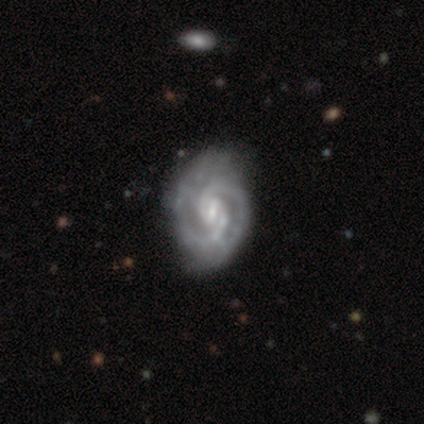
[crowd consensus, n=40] Smooth or featured? featured or disk (95%)
Edge-on disk? no (100%)
Bar? weak (63%)
Spiral arms? yes (97%)
Spiral winding? tight (68%)
Spiral arm count? 2 (86%)
Bulge size? small (71%)
Merging? none (46%)